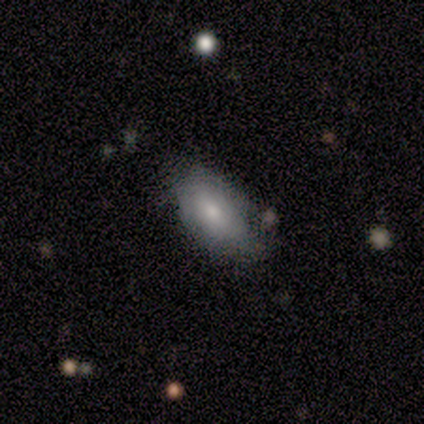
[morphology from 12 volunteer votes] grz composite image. It shows a smooth galaxy with no disk features (67%) that is in between round and cigar-shaped (100%). Merging: none (50%, tied with minor disturbance).